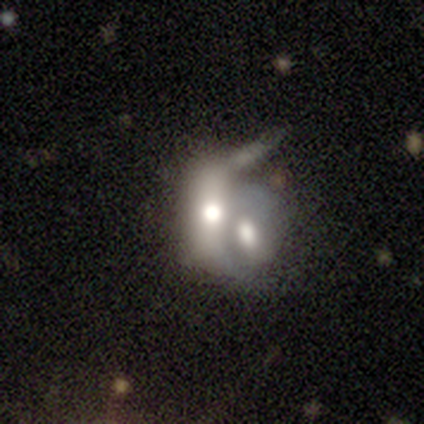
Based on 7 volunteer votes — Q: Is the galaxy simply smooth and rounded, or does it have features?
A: featured or disk — 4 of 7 (57%).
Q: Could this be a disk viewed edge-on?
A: no — 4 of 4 (100%).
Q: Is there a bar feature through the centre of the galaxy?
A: no — 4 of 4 (100%).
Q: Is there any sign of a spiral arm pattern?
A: no — 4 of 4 (100%).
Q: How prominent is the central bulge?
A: large — 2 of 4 (50%, tied with moderate).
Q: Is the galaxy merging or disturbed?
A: merger — 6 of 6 (100%).